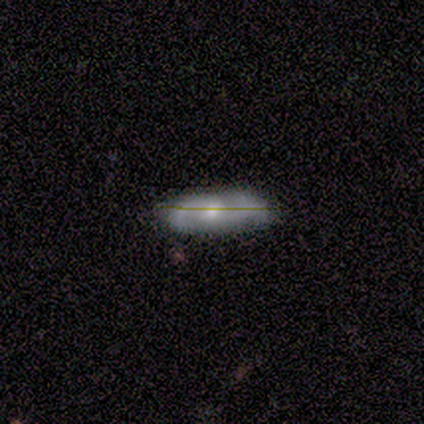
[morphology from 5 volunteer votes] Overall: featured or disk (100%). Edge-on disk: no (60%; yes 40%). Bar: no (100%). Spiral arms: yes (67%; no 33%). Spiral arm count: 2 (100%). Spiral winding: medium (50%, tied with loose). Bulge size: small (67%; moderate 33%). Merging: none (40%, tied with minor disturbance).